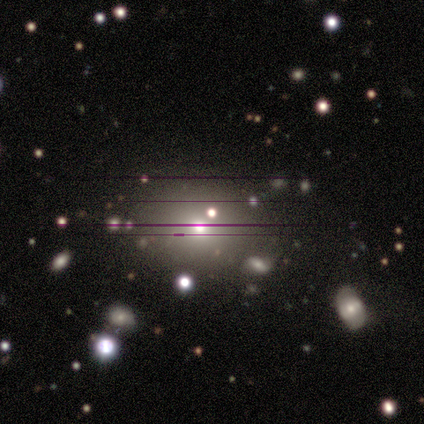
Q: Smooth or featured?
A: smooth (51%); runner-up: star or artifact (31%)
Q: How rounded?
A: in between (60%); runner-up: round (40%)
Q: Merging?
A: none (70%); runner-up: minor disturbance (19%)